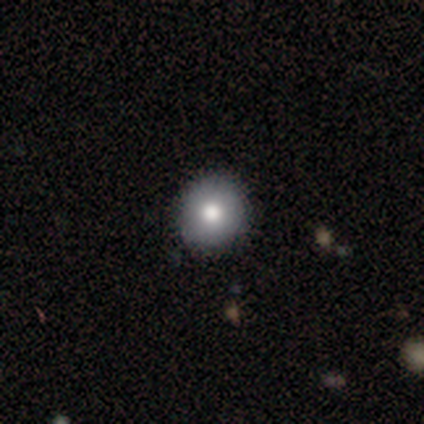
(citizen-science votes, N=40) Smooth or featured: smooth — 85% (featured or disk — 10%)
How rounded: round — 91% (in between — 9%)
Merging: none — 87% (minor disturbance — 13%)